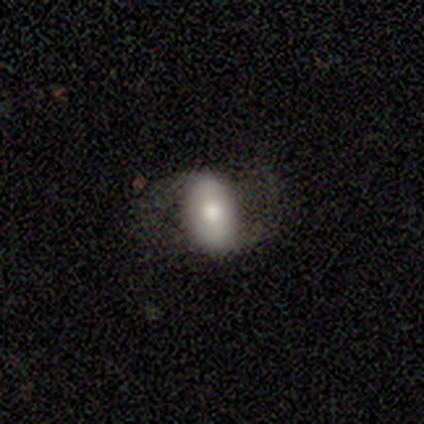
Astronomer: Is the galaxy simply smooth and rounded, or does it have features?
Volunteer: featured or disk — 62%.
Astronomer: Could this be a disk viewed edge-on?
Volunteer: no — 92%.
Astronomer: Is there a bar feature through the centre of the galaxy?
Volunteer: weak — 39% (runner-up: no, 35%).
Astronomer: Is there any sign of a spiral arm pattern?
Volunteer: yes — 74%.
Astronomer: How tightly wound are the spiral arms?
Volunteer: medium — 47% (runner-up: loose, 41%).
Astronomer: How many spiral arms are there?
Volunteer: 2 — 94%.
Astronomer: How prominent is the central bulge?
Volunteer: moderate — 57%.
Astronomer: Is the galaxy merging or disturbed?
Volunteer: none — 59%.